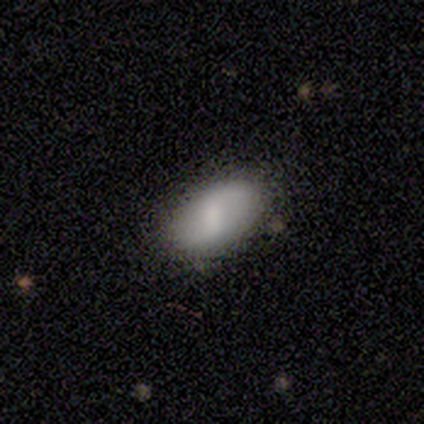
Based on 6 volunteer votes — A smooth galaxy with no disk features (50%, tied with featured or disk) that is in between round and cigar-shaped (100%). Merging: none (83%).